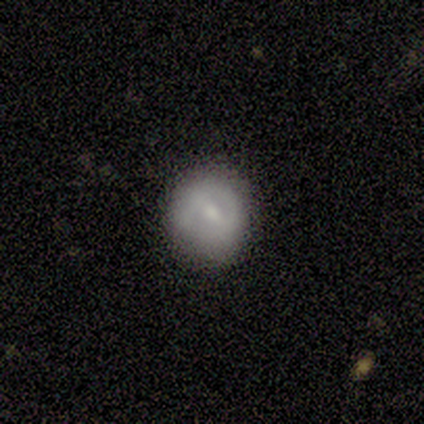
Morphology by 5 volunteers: Volunteers were most divided on "smooth or featured": smooth: 60%, featured or disk: 20%, star or artifact: 20%. More confident: how rounded — round (100%); merging — none (75%).